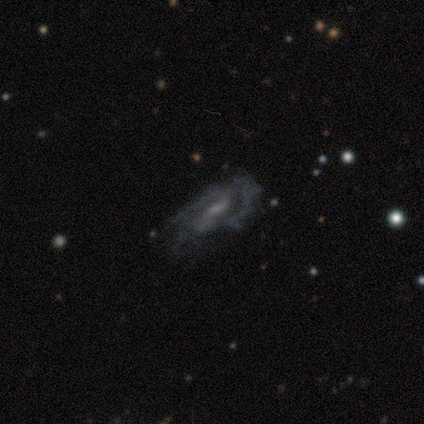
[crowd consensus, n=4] Q: Smooth or featured?
A: featured or disk (50%); runner-up: smooth (25%)
Q: Edge-on disk?
A: no (100%)
Q: Bar?
A: weak (50%); tied with: no (50%)
Q: Spiral arms?
A: yes (100%)
Q: Spiral winding?
A: tight (50%); tied with: loose (50%)
Q: Spiral arm count?
A: 1 (50%); tied with: can't tell (50%)
Q: Bulge size?
A: large (50%); tied with: moderate (50%)
Q: Merging?
A: minor disturbance (67%); runner-up: none (33%)